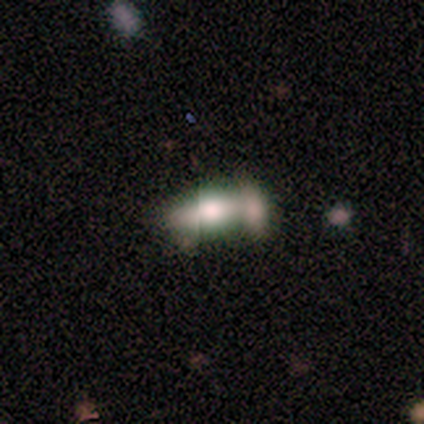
A smooth galaxy with no disk features (75%) that is in between round and cigar-shaped (100%). Merging: none (50%, tied with merger).